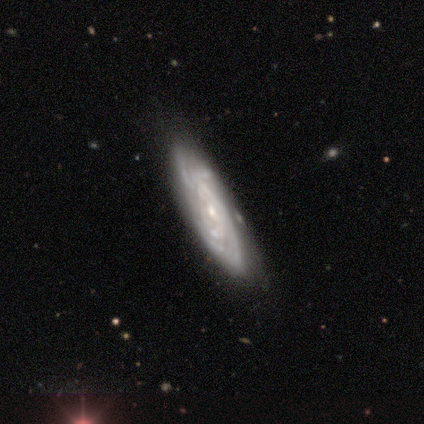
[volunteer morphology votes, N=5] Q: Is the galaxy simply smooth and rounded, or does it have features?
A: featured or disk — 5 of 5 (100%).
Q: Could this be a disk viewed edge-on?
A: no — 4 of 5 (80%).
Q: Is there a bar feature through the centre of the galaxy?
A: no — 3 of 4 (75%).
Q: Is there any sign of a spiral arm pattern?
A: yes — 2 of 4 (50%, tied with no).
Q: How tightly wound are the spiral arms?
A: tight — 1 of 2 (50%, tied with loose).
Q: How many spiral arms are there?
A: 3 — 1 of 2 (50%, tied with can't tell).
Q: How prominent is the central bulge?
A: small — 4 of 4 (100%).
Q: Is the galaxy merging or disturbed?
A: none — 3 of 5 (60%).